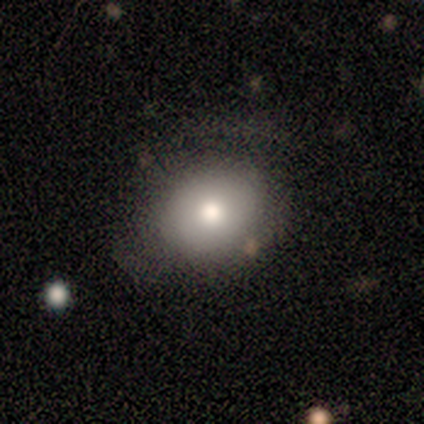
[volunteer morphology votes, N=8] type=smooth (62%); roundness=round (60%); merging=none (75%).